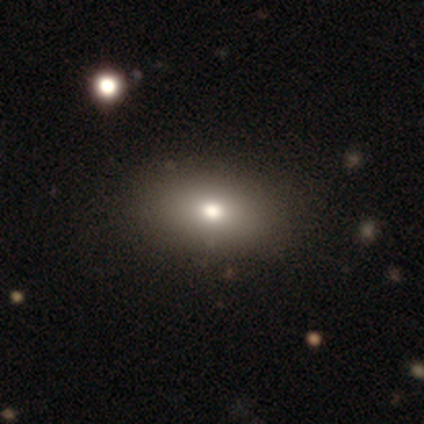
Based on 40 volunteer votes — Overall: smooth (80%). How rounded: in between (91%). Merging: none (72%).